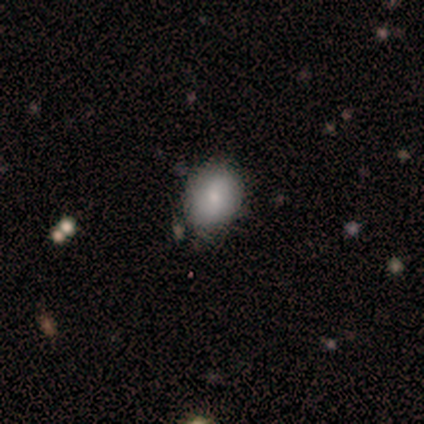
Smooth or featured: smooth — 100%
How rounded: round — 80% (in between — 20%)
Merging: none — 60% (minor disturbance — 20%)